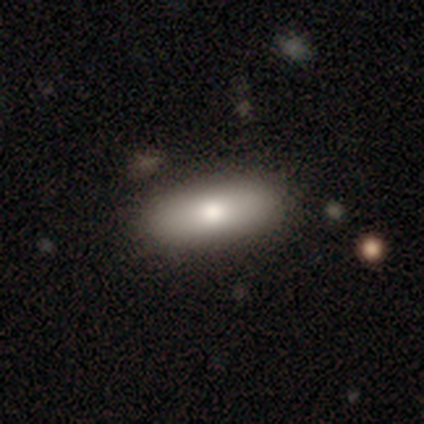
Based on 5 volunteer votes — Q: Smooth or featured?
A: smooth (80%); runner-up: featured or disk (20%)
Q: How rounded?
A: in between (75%); runner-up: cigar-shaped (25%)
Q: Merging?
A: none (80%); runner-up: major disturbance (20%)